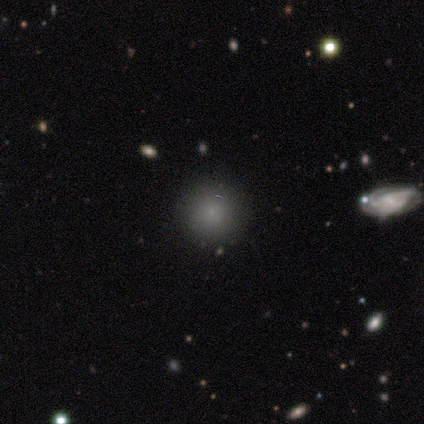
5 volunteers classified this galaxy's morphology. Overall: smooth (80%). How rounded: round (100%). Merging: none (80%).